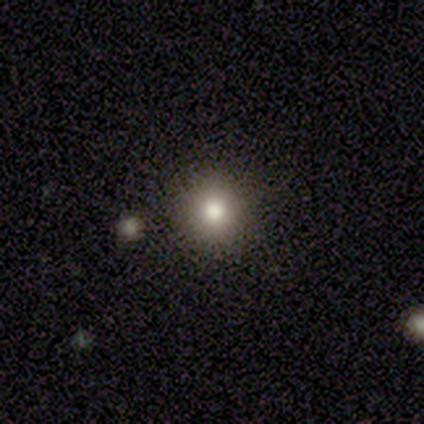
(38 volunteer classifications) Smooth or featured? 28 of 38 (74%) said smooth. How rounded? 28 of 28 (100%) said round. Merging? 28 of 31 (90%) said none.